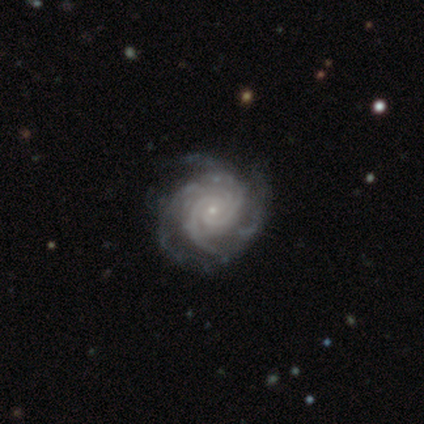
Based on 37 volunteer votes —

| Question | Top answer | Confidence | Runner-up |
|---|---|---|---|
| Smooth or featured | featured or disk | 97% | star or artifact (3%) |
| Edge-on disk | no | 100% | — |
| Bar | no | 78% | weak (19%) |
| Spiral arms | yes | 100% | — |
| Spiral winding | tight | 72% | medium (28%) |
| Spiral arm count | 4 | 36% | can't tell (28%) |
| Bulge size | small | 92% | moderate (8%) |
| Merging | none | 53% | minor disturbance (14%) |